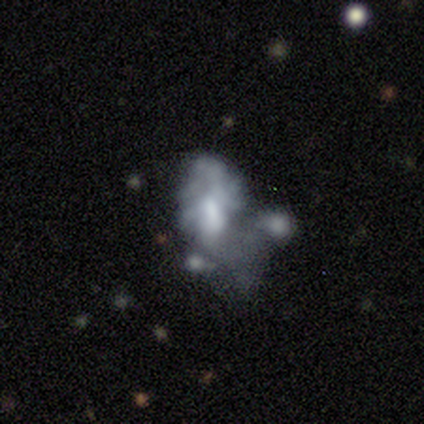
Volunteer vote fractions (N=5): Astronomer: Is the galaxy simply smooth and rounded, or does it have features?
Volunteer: smooth — 60%.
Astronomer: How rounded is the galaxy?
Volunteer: in between — 100%.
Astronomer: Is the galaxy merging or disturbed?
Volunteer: none — 25%, tied with minor disturbance, major disturbance and merger at 25%.